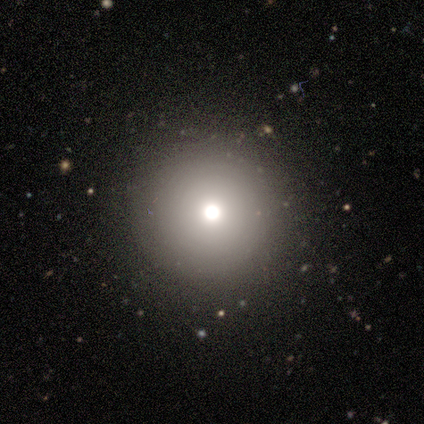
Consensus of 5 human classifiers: Volunteers were most divided on "smooth or featured" (2-way tie): smooth: 40%, star or artifact: 40%, featured or disk: 20%. More confident: how rounded — round (100%); merging — none (100%).